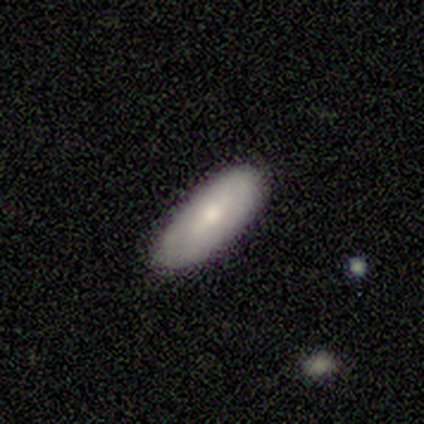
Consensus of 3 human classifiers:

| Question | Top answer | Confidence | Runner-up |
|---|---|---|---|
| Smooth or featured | smooth | 67% | featured or disk (33%) |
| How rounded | in between | 50% | tied: cigar-shaped (50%) |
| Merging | none | 67% | minor disturbance (33%) |